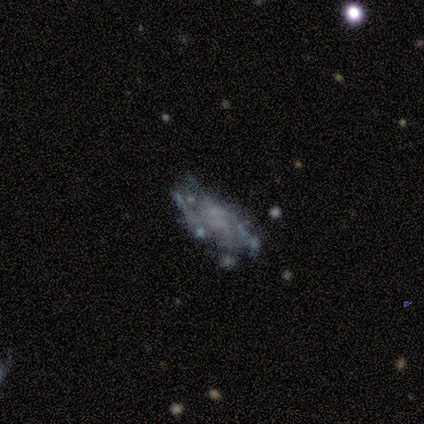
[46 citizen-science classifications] smooth-or-featured: featured or disk: 72% | smooth: 15% | star or artifact: 13%
  disk-edge-on: no: 97% | yes: 3%
    bar: no: 94% | weak: 6% | strong: 0%
    has-spiral-arms: no: 59% | yes: 41%
    bulge-size: none: 84% | small: 12% | moderate: 3% | dominant: 0% | large: 0%
  merging: none: 42% | major disturbance: 28% | minor disturbance: 20% | merger: 10%